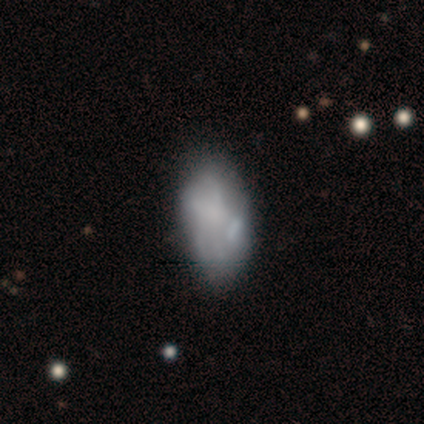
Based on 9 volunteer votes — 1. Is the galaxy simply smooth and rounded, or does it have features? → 67% smooth, 33% featured or disk, 0% star or artifact.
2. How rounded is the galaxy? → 100% in between, 0% round, 0% cigar-shaped.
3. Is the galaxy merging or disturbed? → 56% none, 33% minor disturbance, 11% merger, 0% major disturbance.